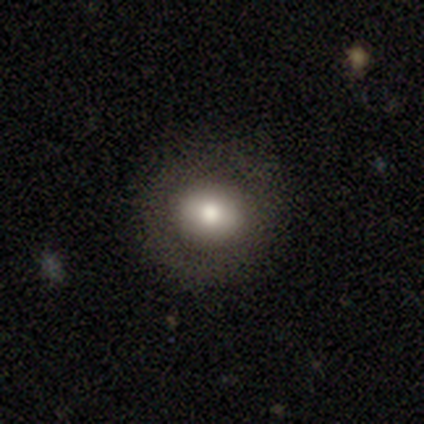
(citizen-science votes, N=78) This is likely a smooth galaxy (69%). How rounded: likely round (72%). Merging: possibly none (51%).